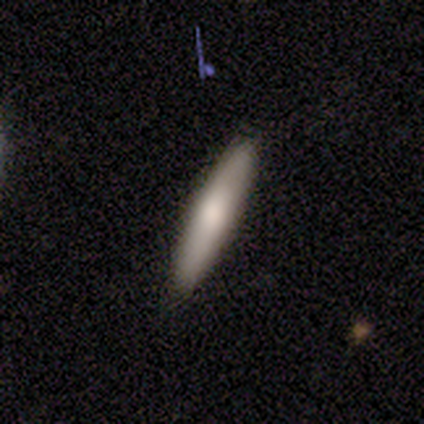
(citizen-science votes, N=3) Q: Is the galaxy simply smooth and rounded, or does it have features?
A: smooth — 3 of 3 (100%).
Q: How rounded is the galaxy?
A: cigar-shaped — 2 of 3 (67%).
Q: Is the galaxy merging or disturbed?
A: none — 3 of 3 (100%).